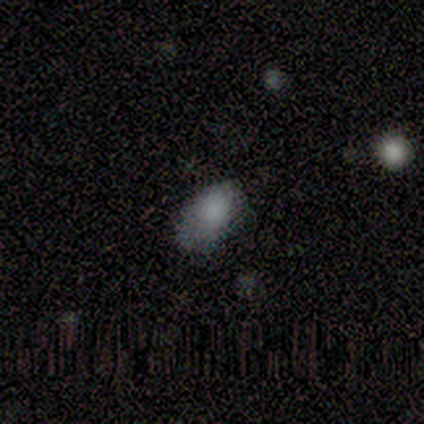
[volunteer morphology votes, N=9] Smooth or featured?
  - smooth: 89% *
  - featured or disk: 11%
  - star or artifact: 0%
How rounded?
  - in between: 100% *
  - round: 0%
  - cigar-shaped: 0%
Merging?
  - minor disturbance: 44% *
  - none: 33%
  - major disturbance: 22%
  - merger: 0%